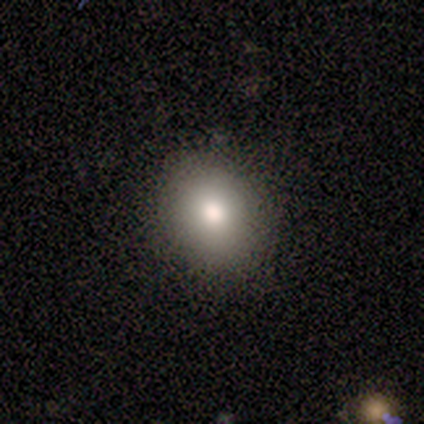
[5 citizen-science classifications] This is marginally a smooth galaxy (40%, tied with featured or disk). How rounded: clearly in between (100%). Merging: clearly none (100%).